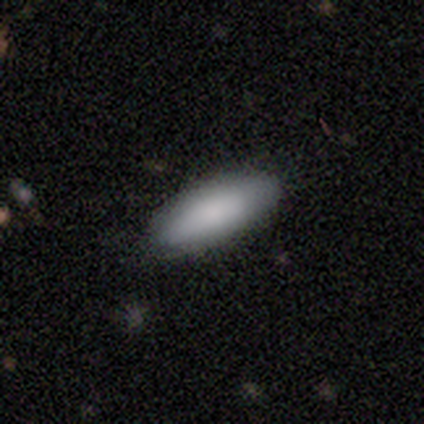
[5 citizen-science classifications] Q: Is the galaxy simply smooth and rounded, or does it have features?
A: smooth — 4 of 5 (80%).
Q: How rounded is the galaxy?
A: in between — 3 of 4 (75%).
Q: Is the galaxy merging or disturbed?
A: none — 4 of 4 (100%).